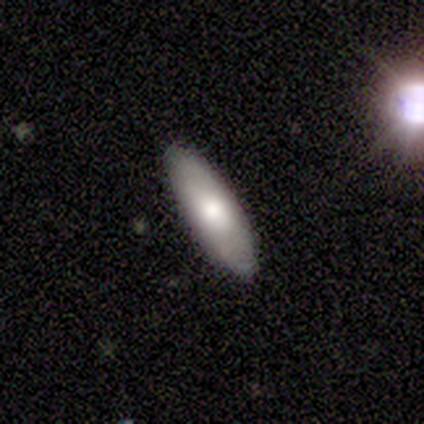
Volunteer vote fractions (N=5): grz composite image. It shows a smooth galaxy with no disk features (80%) that is cigar-shaped (100%). Merging: none (100%).